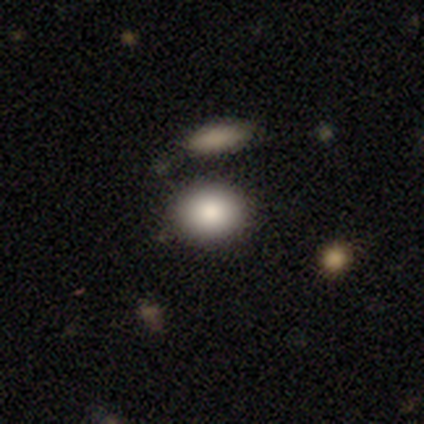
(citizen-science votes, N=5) Smooth or featured? smooth (80%)
How rounded? round (50%, tied with in between)
Merging? none (100%)